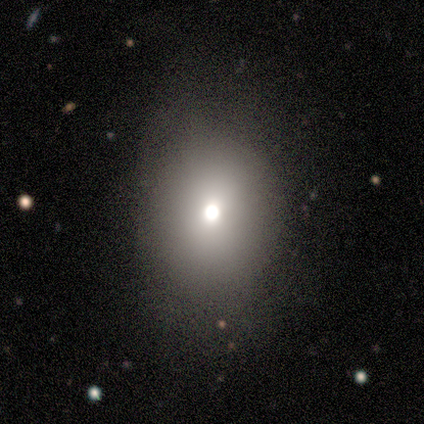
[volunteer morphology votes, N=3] This is likely a smooth galaxy (67%). How rounded: possibly round (50%, tied with in between). Merging: likely none (67%).